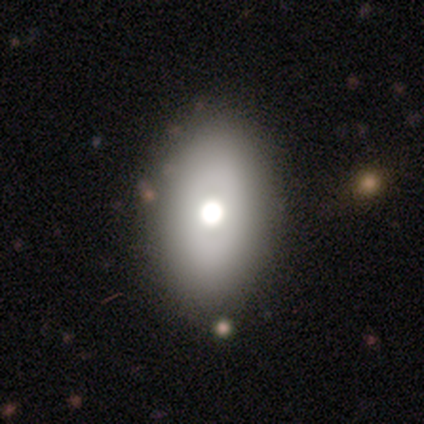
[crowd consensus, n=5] A smooth galaxy with no disk features (100%) that is in between round and cigar-shaped (80%). Merging: none (100%).